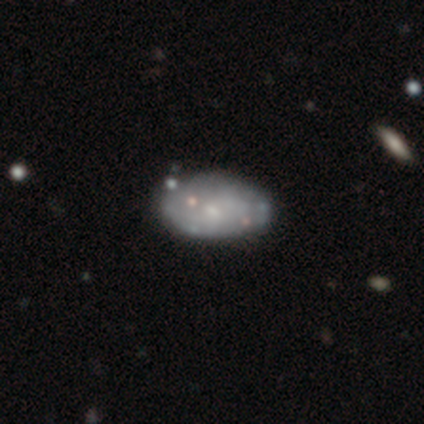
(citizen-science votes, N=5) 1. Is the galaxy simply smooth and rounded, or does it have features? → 60% smooth, 40% featured or disk, 0% star or artifact.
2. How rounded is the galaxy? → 100% in between, 0% round, 0% cigar-shaped.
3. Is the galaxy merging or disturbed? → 80% none, 20% minor disturbance, 0% major disturbance, 0% merger.